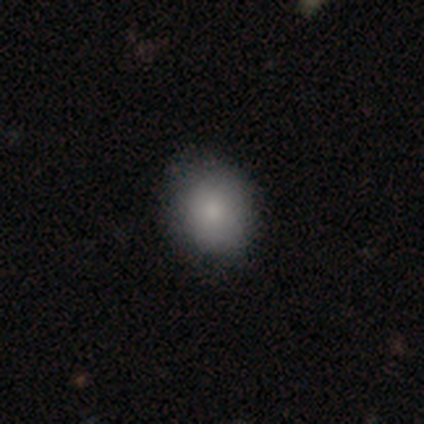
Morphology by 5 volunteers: Smooth or featured?
  - smooth: 80% *
  - star or artifact: 20%
  - featured or disk: 0%
How rounded?
  - round: 50% * (tied)
  - in between: 50% * (tied)
  - cigar-shaped: 0%
Merging?
  - none: 75% *
  - minor disturbance: 25%
  - major disturbance: 0%
  - merger: 0%